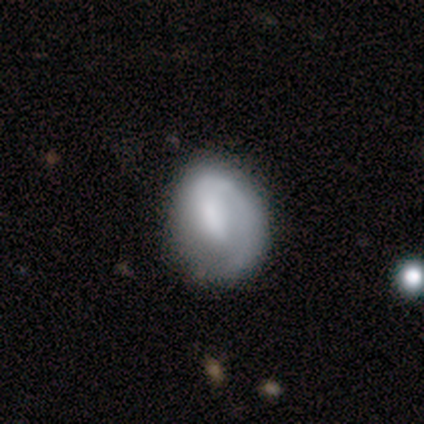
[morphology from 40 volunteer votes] Q: Smooth or featured?
A: featured or disk (52%); runner-up: smooth (40%)
Q: Edge-on disk?
A: no (100%)
Q: Bar?
A: weak (52%); runner-up: no (38%)
Q: Spiral arms?
A: yes (81%); runner-up: no (19%)
Q: Spiral winding?
A: tight (53%); runner-up: loose (29%)
Q: Spiral arm count?
A: 1 (94%); runner-up: can't tell (6%)
Q: Bulge size?
A: none (43%); runner-up: small (33%)
Q: Merging?
A: none (65%); runner-up: minor disturbance (22%)